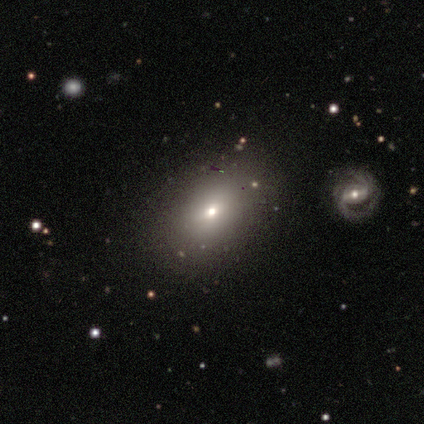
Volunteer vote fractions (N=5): smooth-or-featured: smooth: 60% | featured or disk: 40% | star or artifact: 0%
  how-rounded: in between: 100% | round: 0% | cigar-shaped: 0%
  merging: none: 60% | minor disturbance: 40% | major disturbance: 0% | merger: 0%